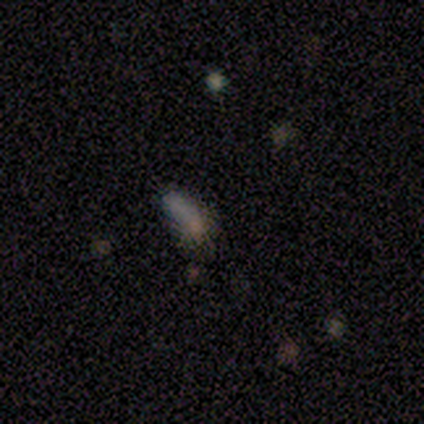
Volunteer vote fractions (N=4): Smooth or featured? smooth (100%)
How rounded? in between (75%)
Merging? minor disturbance (50%)